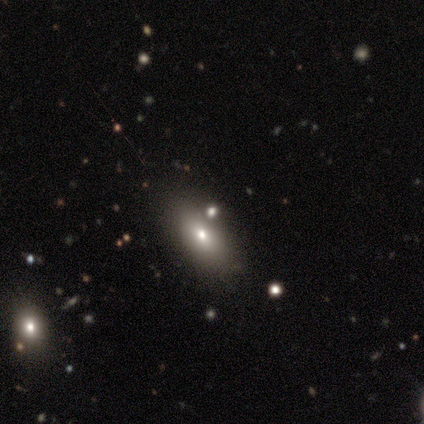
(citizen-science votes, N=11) smooth 55%, featured or disk 27%, star or artifact 18%. Down the decision tree: how rounded — in between (83%); merging — none (67%).